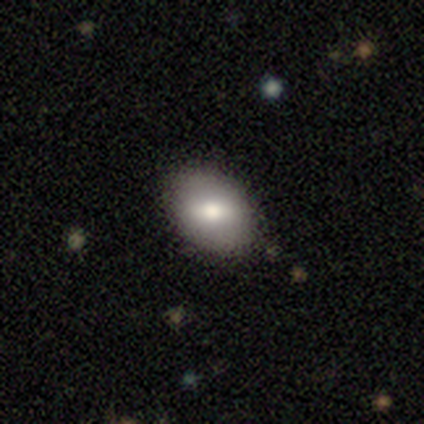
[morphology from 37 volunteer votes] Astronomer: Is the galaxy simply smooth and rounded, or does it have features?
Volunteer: smooth — 62%.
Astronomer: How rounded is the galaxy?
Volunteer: in between — 87%.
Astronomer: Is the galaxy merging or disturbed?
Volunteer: none — 84%.